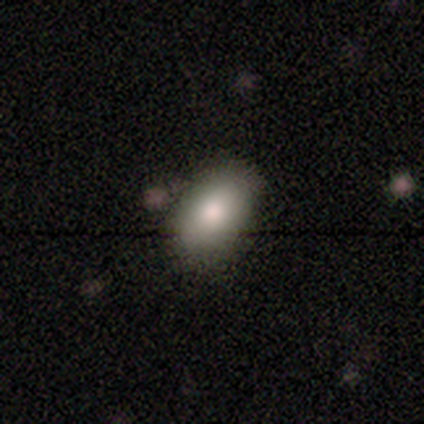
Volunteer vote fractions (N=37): Smooth or featured?
  - smooth: 84% *
  - featured or disk: 11%
  - star or artifact: 5%
How rounded?
  - in between: 100% *
  - round: 0%
  - cigar-shaped: 0%
Merging?
  - none: 63% *
  - minor disturbance: 9%
  - merger: 3%
  - major disturbance: 0%